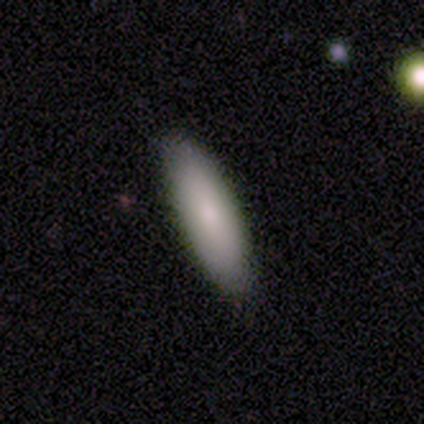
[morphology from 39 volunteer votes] Smooth or featured: smooth — 72% (featured or disk — 23%)
How rounded: in between — 57% (cigar-shaped — 43%)
Merging: none — 78% (minor disturbance — 16%)